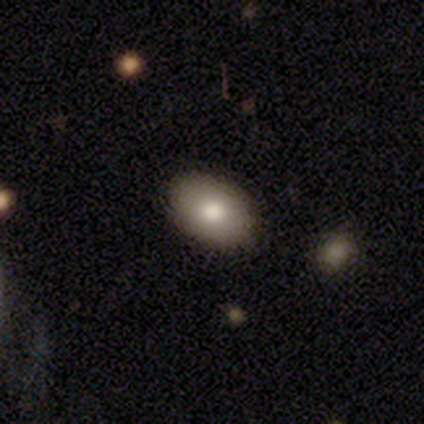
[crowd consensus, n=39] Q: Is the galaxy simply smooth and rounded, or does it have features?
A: smooth — 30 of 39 (77%).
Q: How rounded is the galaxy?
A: in between — 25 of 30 (83%).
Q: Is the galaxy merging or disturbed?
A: none — 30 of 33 (91%).